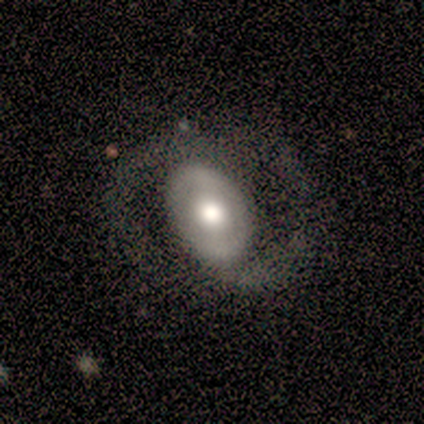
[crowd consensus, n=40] This is likely a featured or disk galaxy (62%). It is clearly not viewed edge-on (100%). Bar: possibly no (48%). Spiral arm pattern: possibly yes (56%). Spiral arm count: likely 2 (71%). Spiral winding: likely medium (71%). Central bulge: possibly moderate (48%). Merging: possibly none (50%).